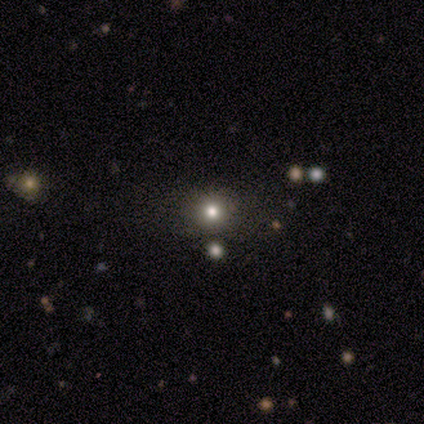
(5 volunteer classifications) Morphology: type=star or artifact (60%).